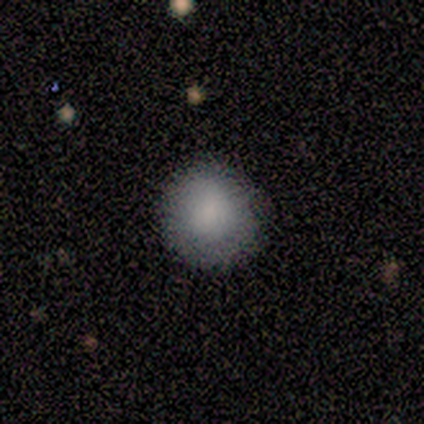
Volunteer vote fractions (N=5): Volunteers were most divided on "smooth or featured": smooth: 60%, featured or disk: 20%, star or artifact: 20%. More confident: how rounded — round (100%); merging — none (100%).